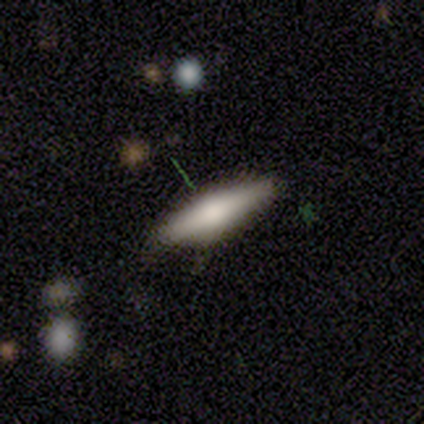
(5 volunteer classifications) Smooth or featured?
  - smooth: 40% * (tied)
  - featured or disk: 40% * (tied)
  - star or artifact: 20%
How rounded?
  - in between: 50% * (tied)
  - cigar-shaped: 50% * (tied)
  - round: 0%
Merging?
  - none: 75% *
  - major disturbance: 25%
  - minor disturbance: 0%
  - merger: 0%